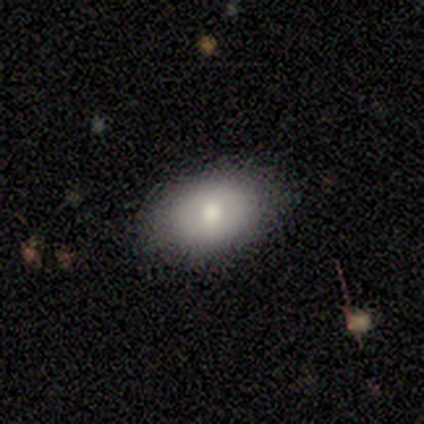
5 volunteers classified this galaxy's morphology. type=smooth (100%); roundness=in between (100%); merging=none (80%).